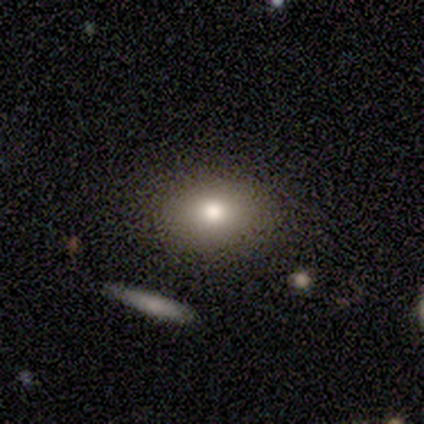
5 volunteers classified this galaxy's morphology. smooth 60%, featured or disk 20%, star or artifact 20%. Down the decision tree: how rounded — in between (67%); merging — none (75%).